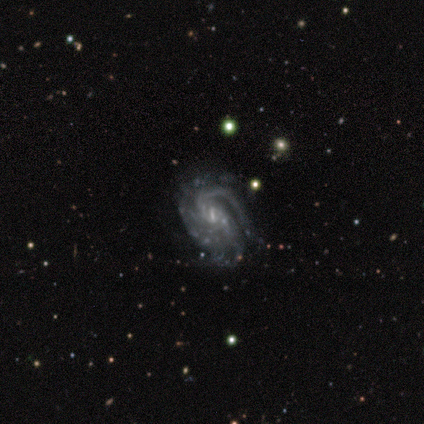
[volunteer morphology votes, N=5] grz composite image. It shows a featured or disk galaxy (100%) with a weak bar (100%), 3 (60%) medium (100%) spiral arms (100%) and a small central bulge (60%). Merging: none (60%).